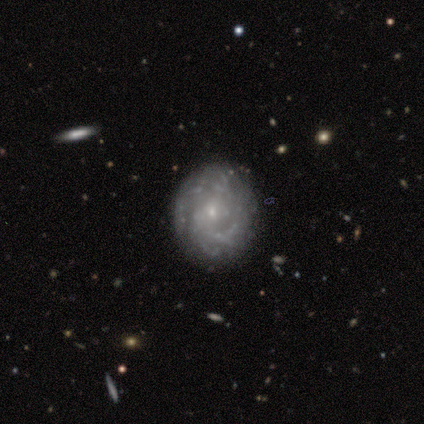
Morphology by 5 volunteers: type=featured or disk (80%); edge-on=no (75%); bar=strong (33%, tied with weak and no); spiral arms=yes (100%); winding=tight (67%); arm count=can't tell (67%); bulge=small (100%); merging=none (60%).